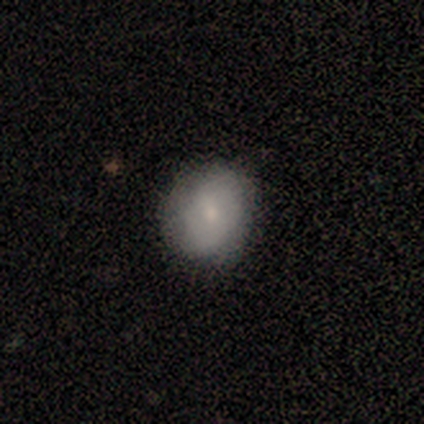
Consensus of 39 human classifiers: Smooth or featured? 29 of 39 (74%) said smooth. How rounded? 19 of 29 (66%) said round. Merging? 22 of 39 (56%) said none.